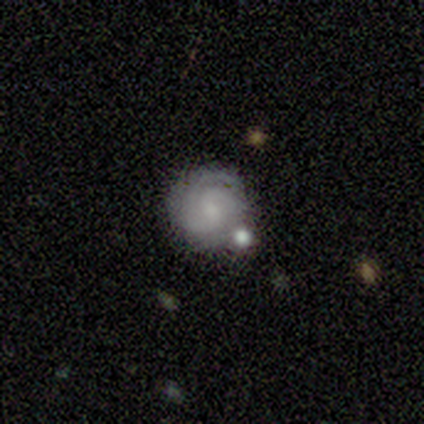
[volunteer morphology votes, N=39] Smooth or featured?
  - featured or disk: 77% *
  - smooth: 21%
  - star or artifact: 3%
Edge-on disk?
  - no: 93% *
  - yes: 7%
Bar?
  - no: 71% *
  - weak: 29%
  - strong: 0%
Spiral arms?
  - yes: 89% *
  - no: 11%
Spiral winding?
  - tight: 68% *
  - medium: 32%
  - loose: 0%
Spiral arm count?
  - 2: 36% *
  - can't tell: 28%
  - 3: 24%
  - more than 4: 8%
  - 4: 4%
  - 1: 0%
Bulge size?
  - small: 57% *
  - none: 25%
  - moderate: 18%
  - dominant: 0%
  - large: 0%
Merging?
  - none: 74% *
  - minor disturbance: 13%
  - merger: 13%
  - major disturbance: 0%